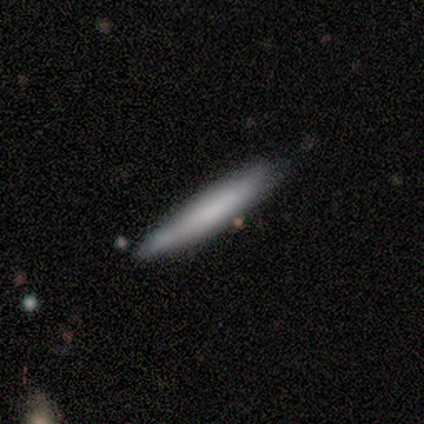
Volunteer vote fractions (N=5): Smooth or featured? 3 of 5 (60%) said smooth. How rounded? 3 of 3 (100%) said cigar-shaped. Merging? 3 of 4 (75%) said none.